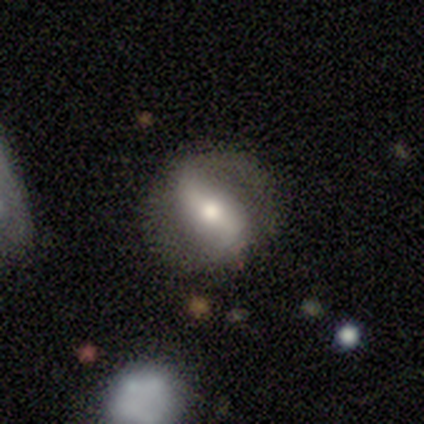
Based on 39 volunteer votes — smooth_or_featured: featured or disk (p=0.79) [alt: smooth p=0.13]
disk_edge_on: no (p=0.81) [alt: yes p=0.19]
bar: strong (p=0.56) [alt: weak p=0.32]
has_spiral_arms: yes (p=0.72) [alt: no p=0.28]
spiral_winding: loose (p=0.67) [alt: medium p=0.22]
spiral_arm_count: 2 (p=0.94) [alt: can't tell p=0.06]
bulge_size: moderate (p=0.64) [alt: small p=0.28]
merging: none (p=0.81) [alt: minor disturbance p=0.11]